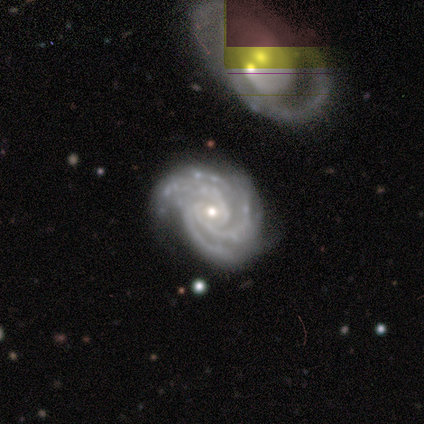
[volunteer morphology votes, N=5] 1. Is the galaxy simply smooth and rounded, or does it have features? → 80% featured or disk, 20% smooth, 0% star or artifact.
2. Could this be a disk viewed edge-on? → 100% no, 0% yes.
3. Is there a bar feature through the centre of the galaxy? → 50% no, 25% strong, 25% weak.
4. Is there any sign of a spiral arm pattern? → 100% yes, 0% no.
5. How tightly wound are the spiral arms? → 50% tight, 25% medium, 25% loose.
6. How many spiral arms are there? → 50% more than 4, 25% 3, 25% 4, 0% 1, 0% 2, 0% can't tell.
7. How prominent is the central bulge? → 50% small, 25% large, 25% moderate, 0% dominant, 0% none.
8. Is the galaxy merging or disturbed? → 80% none, 20% minor disturbance, 0% major disturbance, 0% merger.